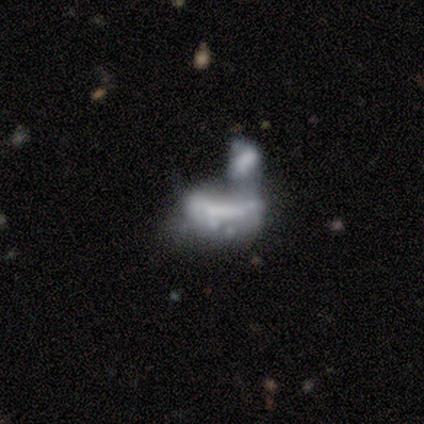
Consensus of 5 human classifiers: A featured or disk galaxy (60%) with a strong bar (67%), no spiral arms (67%) and no central bulge (67%).

Vote fractions:
- Smooth or featured? featured or disk: 60% / star or artifact: 40% / smooth: 0%
- Edge-on disk? no: 100% / yes: 0%
- Bar? strong: 67% / no: 33% / weak: 0%
- Spiral arms? no: 67% / yes: 33%
- Bulge size? none: 67% / small: 33% / dominant: 0% / large: 0% / moderate: 0%
- Merging? merger: 100% / none: 0% / minor disturbance: 0% / major disturbance: 0%